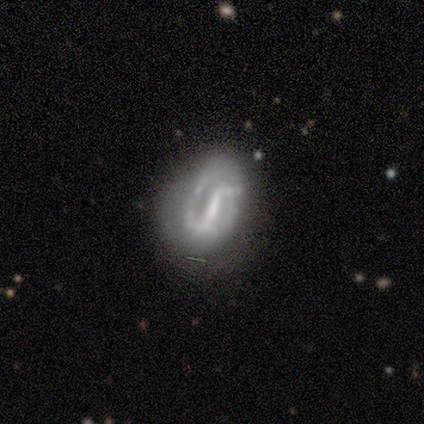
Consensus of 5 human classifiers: A featured or disk galaxy (60%) with a strong bar (100%), 2 (100%) tight (50%, tied with medium) spiral arms (67%) and a moderate central bulge (67%).

Vote fractions:
- Smooth or featured? featured or disk: 60% / smooth: 20% / star or artifact: 20%
- Edge-on disk? no: 100% / yes: 0%
- Bar? strong: 100% / weak: 0% / no: 0%
- Spiral arms? yes: 67% / no: 33%
- Spiral winding? tight: 50% (tied) / medium: 50% (tied) / loose: 0%
- Spiral arm count? 2: 100% / 1: 0% / 3: 0% / 4: 0% / more than 4: 0% / can't tell: 0%
- Bulge size? moderate: 67% / small: 33% / dominant: 0% / large: 0% / none: 0%
- Merging? none: 50% (tied) / minor disturbance: 50% (tied) / major disturbance: 0% / merger: 0%